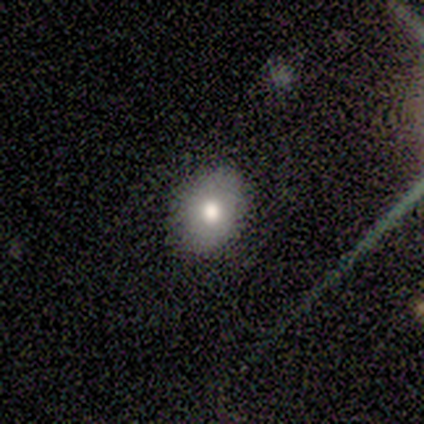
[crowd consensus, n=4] Q: Smooth or featured?
A: smooth (100%)
Q: How rounded?
A: in between (100%)
Q: Merging?
A: none (50%); tied with: minor disturbance (50%)